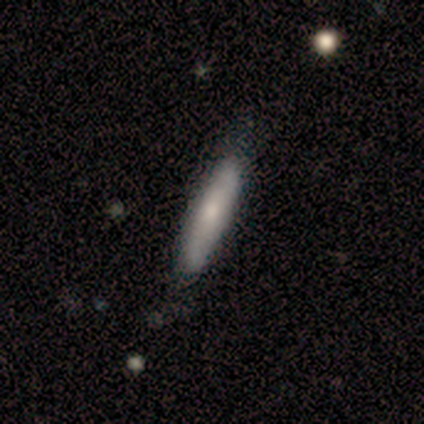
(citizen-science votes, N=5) Smooth or featured? smooth (60%)
How rounded? cigar-shaped (100%)
Merging? none (80%)